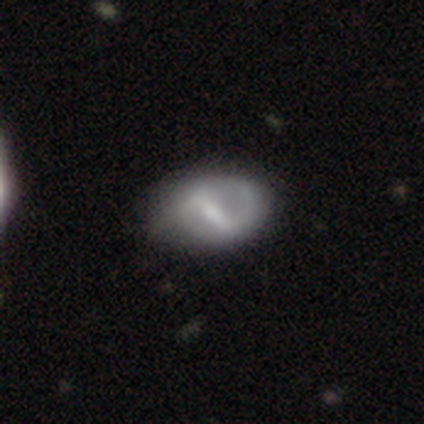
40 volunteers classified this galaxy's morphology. smooth-or-featured: featured or disk: 75% | smooth: 22% | star or artifact: 2%
  disk-edge-on: no: 97% | yes: 3%
    bar: strong: 72% | weak: 21% | no: 7%
    has-spiral-arms: yes: 52% | no: 48%
      spiral-winding: medium: 60% | loose: 27% | tight: 13%
      spiral-arm-count: 2: 67% | 1: 20% | can't tell: 13% | 3: 0% | 4: 0% | more than 4: 0%
    bulge-size: none: 34% | moderate: 28% | small: 21% | large: 14% | dominant: 3%
  merging: none: 46% | minor disturbance: 28% | major disturbance: 3% | merger: 3%